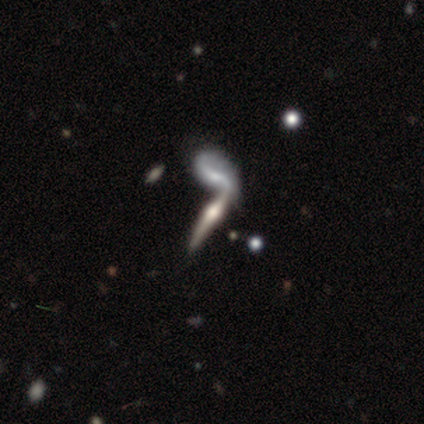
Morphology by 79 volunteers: Q: Smooth or featured?
A: featured or disk (77%); runner-up: smooth (14%)
Q: Edge-on disk?
A: yes (85%); runner-up: no (15%)
Q: Edge-on bulge?
A: rounded (88%); runner-up: boxy (12%)
Q: Merging?
A: merger (49%); runner-up: none (15%)